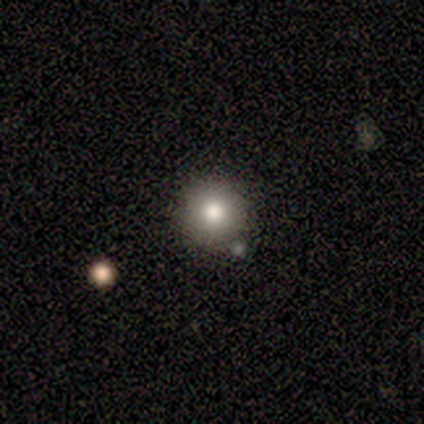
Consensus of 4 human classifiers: Q: Smooth or featured?
A: smooth (75%); runner-up: star or artifact (25%)
Q: How rounded?
A: round (100%)
Q: Merging?
A: none (67%); runner-up: minor disturbance (33%)